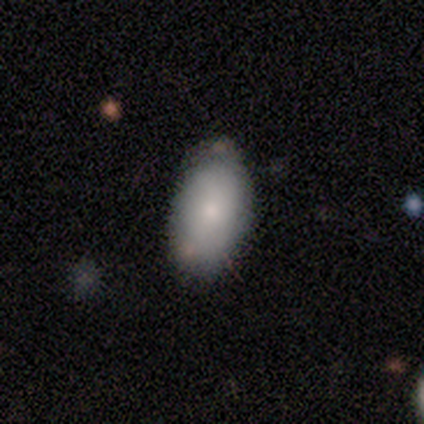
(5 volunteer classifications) Morphology: type=smooth (80%); roundness=in between (100%); merging=none (100%).